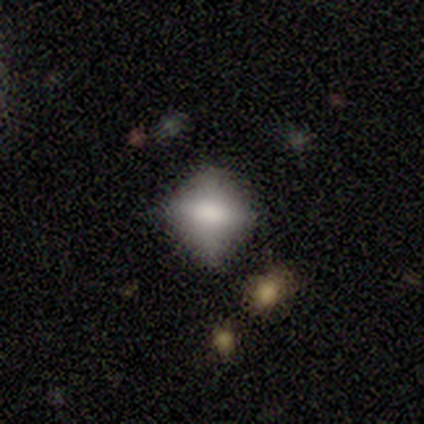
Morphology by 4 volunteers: Q: Smooth or featured?
A: smooth (50%); runner-up: featured or disk (25%)
Q: How rounded?
A: round (100%)
Q: Merging?
A: minor disturbance (67%); runner-up: none (33%)